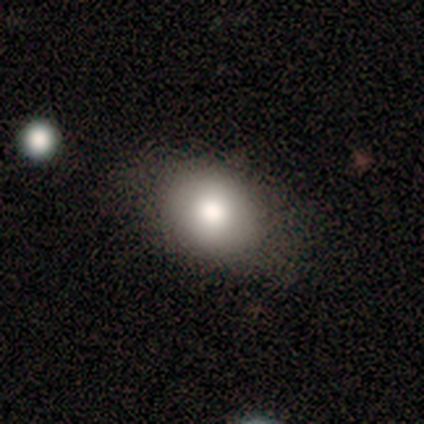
Volunteers were most divided on "how rounded": in between: 60%, round: 40%, cigar-shaped: 0%. More confident: smooth or featured — smooth (100%); merging — none (60%).